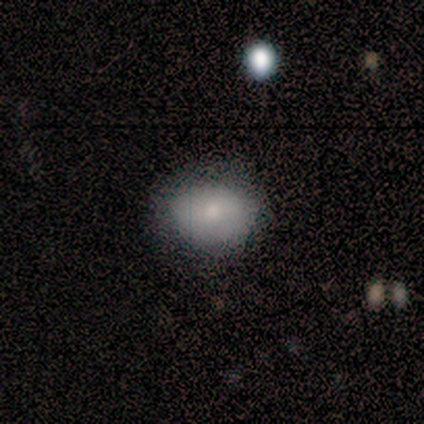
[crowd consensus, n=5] smooth-or-featured: smooth: 100% | featured or disk: 0% | star or artifact: 0%
  how-rounded: in between: 60% | round: 40% | cigar-shaped: 0%
  merging: none: 60% | minor disturbance: 20% | major disturbance: 20% | merger: 0%